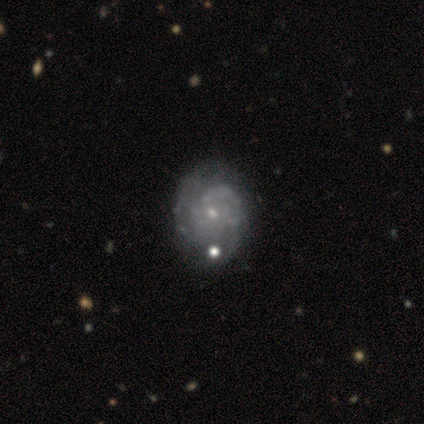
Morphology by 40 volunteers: Q: Smooth or featured?
A: featured or disk (90%); runner-up: smooth (10%)
Q: Edge-on disk?
A: no (97%); runner-up: yes (3%)
Q: Bar?
A: no (63%); runner-up: weak (37%)
Q: Spiral arms?
A: yes (94%); runner-up: no (6%)
Q: Spiral winding?
A: tight (88%); runner-up: medium (9%)
Q: Spiral arm count?
A: can't tell (39%); runner-up: 2 (21%)
Q: Bulge size?
A: small (77%); runner-up: moderate (23%)
Q: Merging?
A: none (57%); runner-up: minor disturbance (12%)